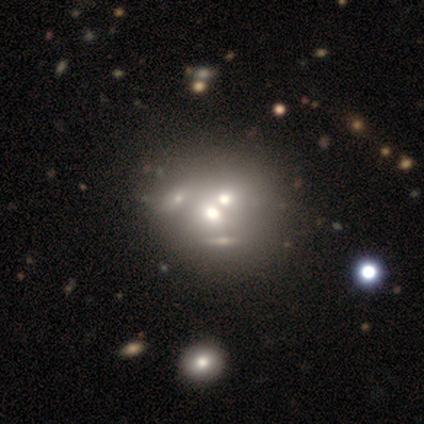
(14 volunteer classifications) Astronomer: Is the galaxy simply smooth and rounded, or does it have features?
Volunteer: featured or disk — 36%, tied with star or artifact at 36%.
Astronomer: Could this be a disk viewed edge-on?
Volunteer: no — 100%.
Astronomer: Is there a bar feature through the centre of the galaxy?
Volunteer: no — 100%.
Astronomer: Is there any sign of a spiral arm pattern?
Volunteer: no — 100%.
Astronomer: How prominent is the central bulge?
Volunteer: moderate — 60%.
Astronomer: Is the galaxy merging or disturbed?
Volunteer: none — 56% (runner-up: merger, 44%).